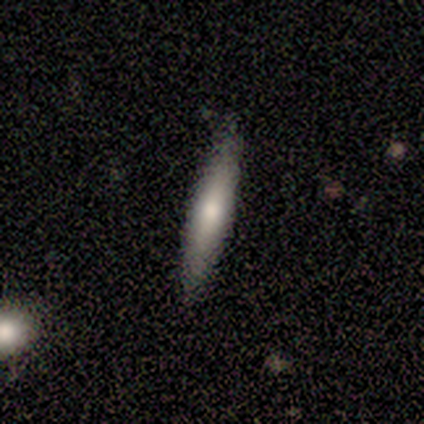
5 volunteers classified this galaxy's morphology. This appears to be a smooth galaxy with no disk features (60%) that is cigar-shaped (100%). Merging: none (100%).